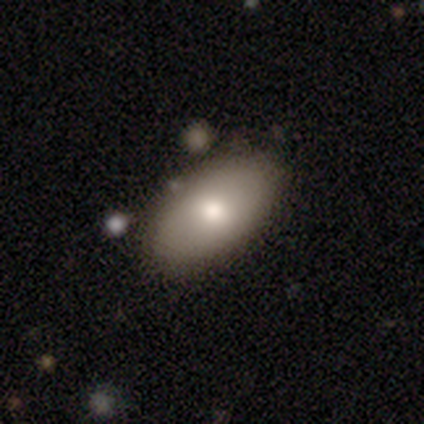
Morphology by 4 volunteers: Smooth or featured: smooth — 75% (featured or disk — 25%)
How rounded: in between — 100%
Merging: none — 75% (merger — 25%)